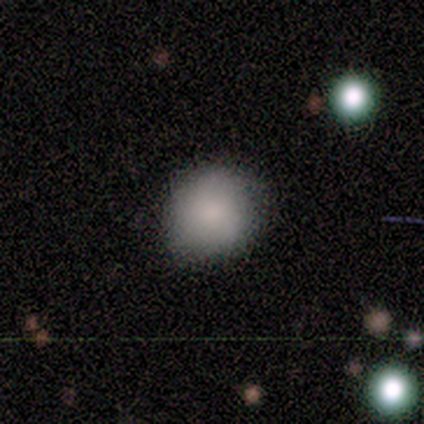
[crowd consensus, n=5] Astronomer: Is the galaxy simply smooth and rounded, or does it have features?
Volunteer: smooth — 80%.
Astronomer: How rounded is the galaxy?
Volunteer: round — 100%.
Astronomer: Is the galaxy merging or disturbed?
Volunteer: none — 50%, tied with minor disturbance at 50%.